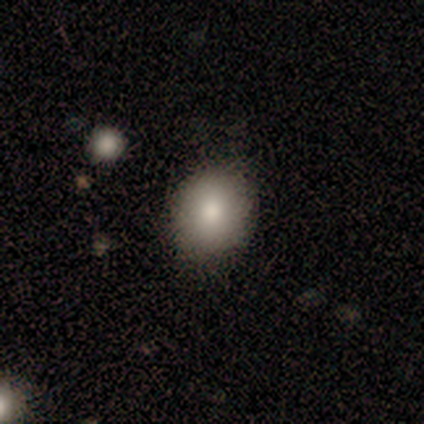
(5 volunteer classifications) Smooth or featured?
  - smooth: 60% *
  - featured or disk: 40%
  - star or artifact: 0%
How rounded?
  - round: 67% *
  - in between: 33%
  - cigar-shaped: 0%
Merging?
  - none: 80% *
  - minor disturbance: 20%
  - major disturbance: 0%
  - merger: 0%